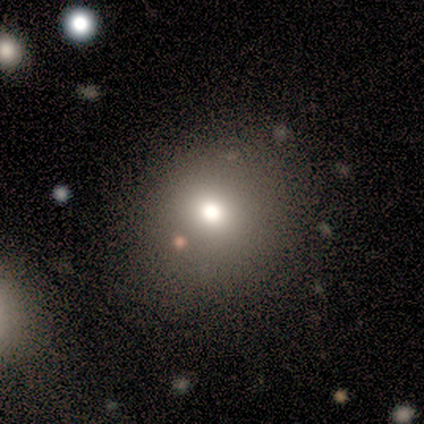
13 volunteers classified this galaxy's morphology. smooth-or-featured: smooth: 62% | star or artifact: 23% | featured or disk: 15%
  how-rounded: round: 88% | in between: 12% | cigar-shaped: 0%
  merging: none: 90% | minor disturbance: 10% | major disturbance: 0% | merger: 0%